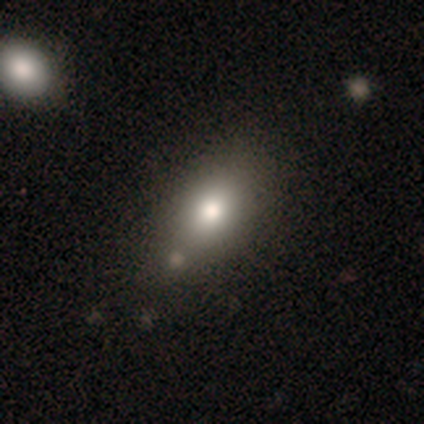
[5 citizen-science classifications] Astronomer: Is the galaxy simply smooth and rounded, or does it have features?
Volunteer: smooth — 60%.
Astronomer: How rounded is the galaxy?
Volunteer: in between — 100%.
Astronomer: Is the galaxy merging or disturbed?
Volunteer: none — 25%, tied with minor disturbance, major disturbance and merger at 25%.